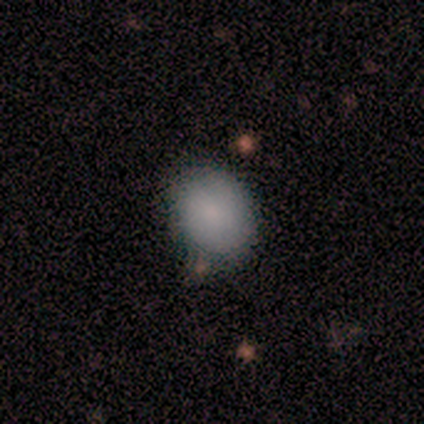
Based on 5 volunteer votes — A smooth galaxy with no disk features (100%) that is in between round and cigar-shaped (80%). Merging: none (100%).